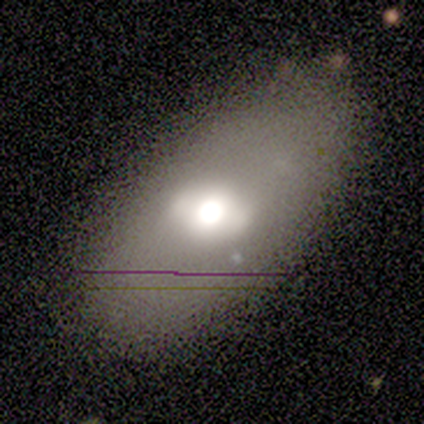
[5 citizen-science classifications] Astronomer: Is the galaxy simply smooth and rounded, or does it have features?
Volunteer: featured or disk — 60% (runner-up: smooth, 40%).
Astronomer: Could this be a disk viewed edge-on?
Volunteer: no — 100%.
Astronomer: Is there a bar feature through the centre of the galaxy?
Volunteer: weak — 67%.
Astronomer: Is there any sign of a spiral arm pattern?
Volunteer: no — 100%.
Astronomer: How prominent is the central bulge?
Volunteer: large — 100%.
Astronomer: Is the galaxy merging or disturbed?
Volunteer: none — 80%.